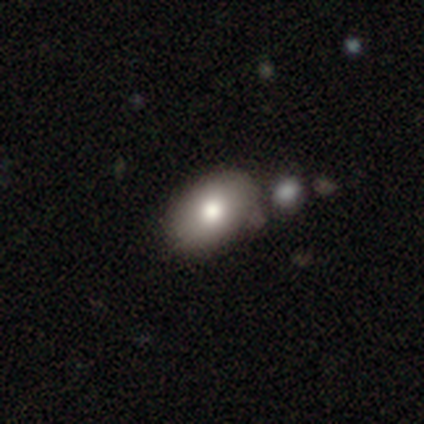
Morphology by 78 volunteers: Overall: smooth (79%). How rounded: in between (87%). Merging: none (38%; merger 15%).